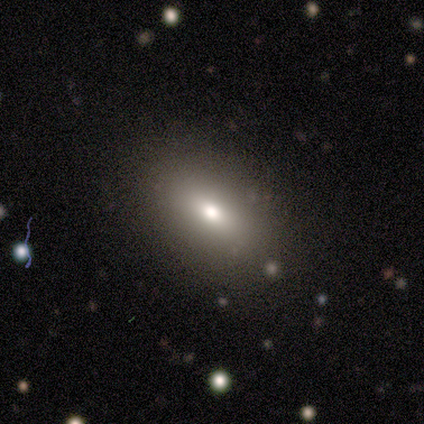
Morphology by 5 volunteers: smooth-or-featured: smooth: 80% | featured or disk: 20% | star or artifact: 0%
  how-rounded: in between: 100% | round: 0% | cigar-shaped: 0%
  merging: none: 100% | minor disturbance: 0% | major disturbance: 0% | merger: 0%